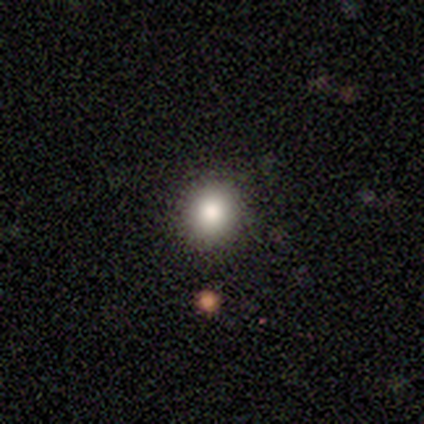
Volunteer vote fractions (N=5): Q: Smooth or featured?
A: star or artifact (60%); runner-up: smooth (40%)